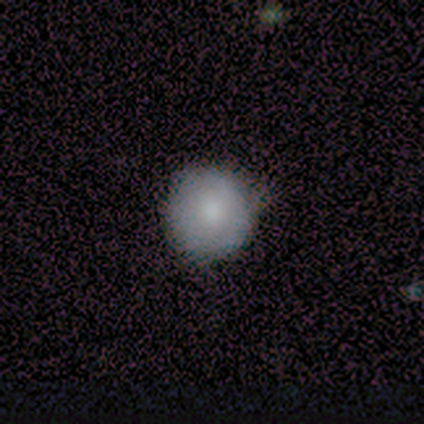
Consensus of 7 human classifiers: This appears to be a smooth galaxy with no disk features (71%) that is round (100%). Merging: none (57%).